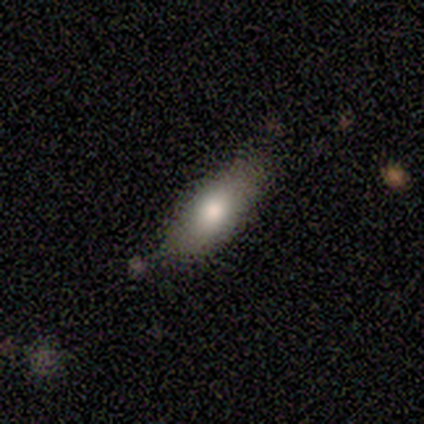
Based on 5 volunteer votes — Q: Smooth or featured?
A: smooth (80%); runner-up: star or artifact (20%)
Q: How rounded?
A: in between (75%); runner-up: cigar-shaped (25%)
Q: Merging?
A: none (100%)